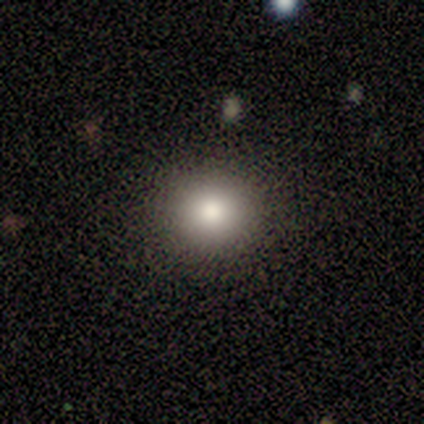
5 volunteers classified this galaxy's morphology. Q: Smooth or featured?
A: smooth (80%); runner-up: star or artifact (20%)
Q: How rounded?
A: round (100%)
Q: Merging?
A: none (100%)